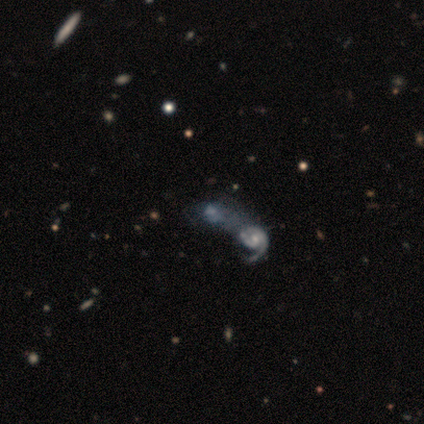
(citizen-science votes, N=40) A featured or disk galaxy (75%) with no bar (80%), 1 (47%) medium (60%) spiral arms (50%, tied with no) and a small central bulge (40%). Merging: merger (79%).